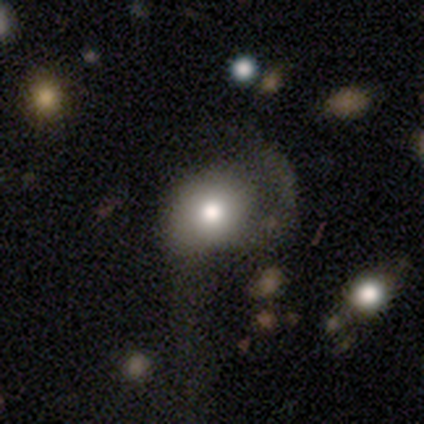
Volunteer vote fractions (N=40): Overall: smooth (55%; featured or disk 32%). How rounded: round (64%; in between 36%). Merging: major disturbance (43%; none 26%).